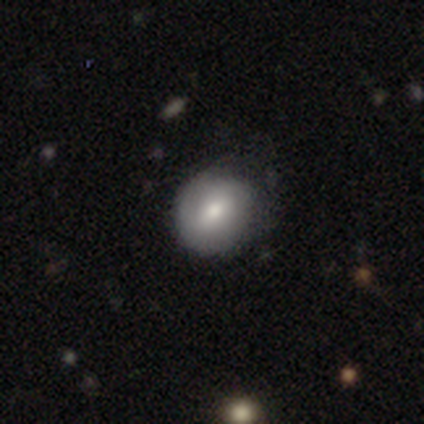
Overall: smooth (60%; featured or disk 40%). How rounded: in between (67%; round 33%). Merging: none (40%, tied with minor disturbance).